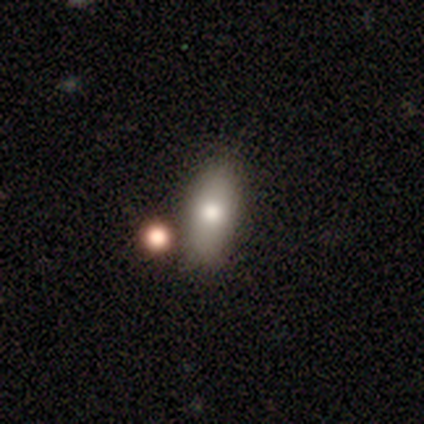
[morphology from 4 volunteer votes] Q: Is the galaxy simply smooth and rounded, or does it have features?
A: smooth — 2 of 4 (50%, tied with star or artifact).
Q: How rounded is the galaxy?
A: in between — 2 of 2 (100%).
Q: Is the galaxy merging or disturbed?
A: none — 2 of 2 (100%).